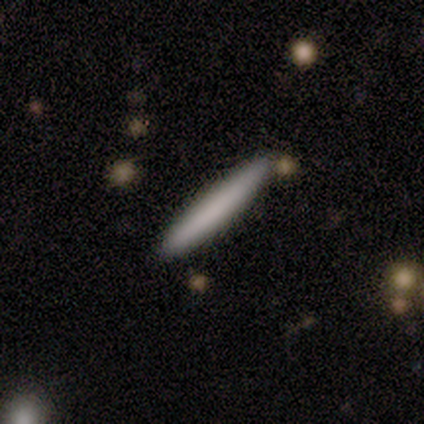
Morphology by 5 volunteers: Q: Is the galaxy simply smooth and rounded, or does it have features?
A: smooth — 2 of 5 (40%, tied with featured or disk).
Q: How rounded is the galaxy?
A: in between — 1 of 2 (50%, tied with cigar-shaped).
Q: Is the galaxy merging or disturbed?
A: none — 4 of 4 (100%).